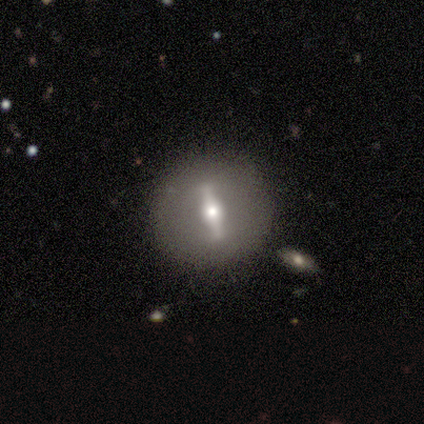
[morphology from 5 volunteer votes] smooth-or-featured: featured or disk: 100% | smooth: 0% | star or artifact: 0%
  disk-edge-on: no: 100% | yes: 0%
    bar: strong: 100% | weak: 0% | no: 0%
    has-spiral-arms: no: 100% | yes: 0%
    bulge-size: moderate: 80% | small: 20% | dominant: 0% | large: 0% | none: 0%
  merging: none: 100% | minor disturbance: 0% | major disturbance: 0% | merger: 0%